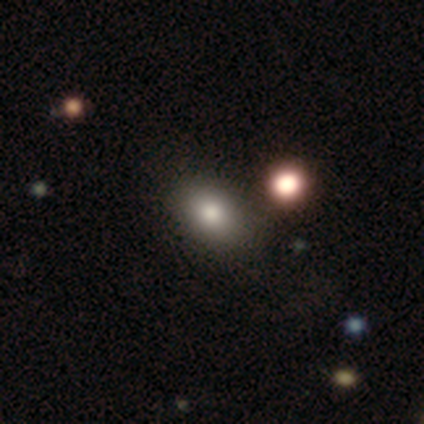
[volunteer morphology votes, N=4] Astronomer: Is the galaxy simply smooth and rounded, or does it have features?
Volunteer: smooth — 75%.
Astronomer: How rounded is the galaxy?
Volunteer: in between — 100%.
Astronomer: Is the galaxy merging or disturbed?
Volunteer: none — 75%.